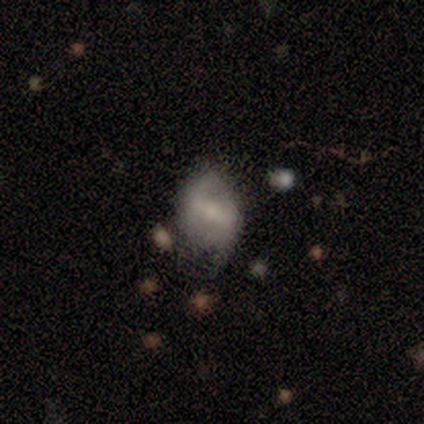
smooth 60%, featured or disk 40%, star or artifact 0%. Down the decision tree: how rounded — in between (100%); merging — none (60%).